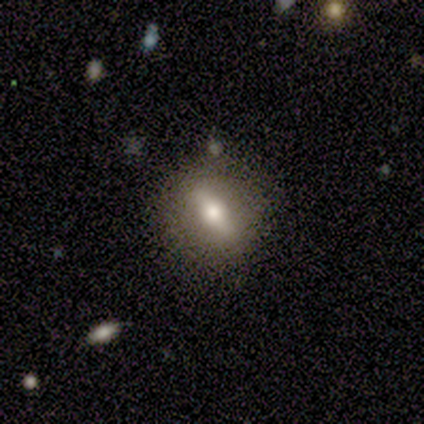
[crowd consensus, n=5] Smooth or featured? featured or disk (80%)
Edge-on disk? no (100%)
Bar? strong (100%)
Spiral arms? no (100%)
Bulge size? moderate (75%)
Merging? none (80%)